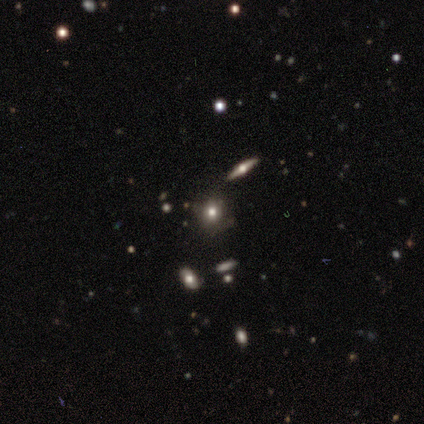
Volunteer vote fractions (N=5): Smooth or featured? smooth (60%)
How rounded? round (67%)
Merging? none (50%, tied with minor disturbance)